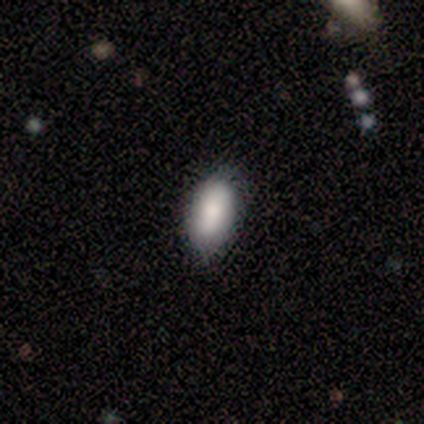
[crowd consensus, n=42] Smooth or featured? 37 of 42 (88%) said smooth. How rounded? 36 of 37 (97%) said in between. Merging? 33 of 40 (82%) said none.